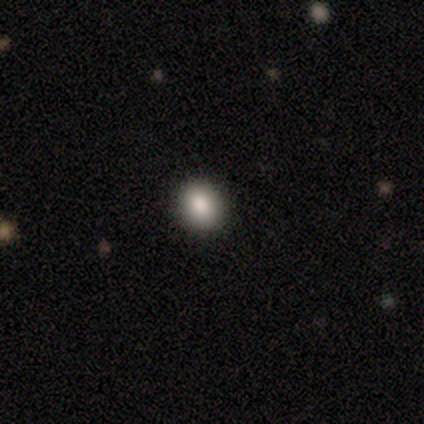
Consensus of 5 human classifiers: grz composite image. It shows a smooth galaxy with no disk features (40%, tied with star or artifact) that is round (50%, tied with in between). Merging: none (100%).